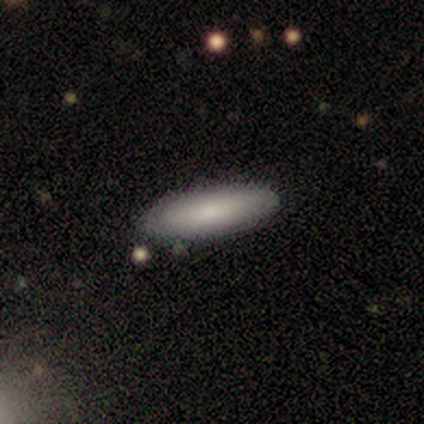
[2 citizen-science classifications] A smooth galaxy with no disk features (100%) that is in between round and cigar-shaped (50%, tied with cigar-shaped). Merging: none (100%).